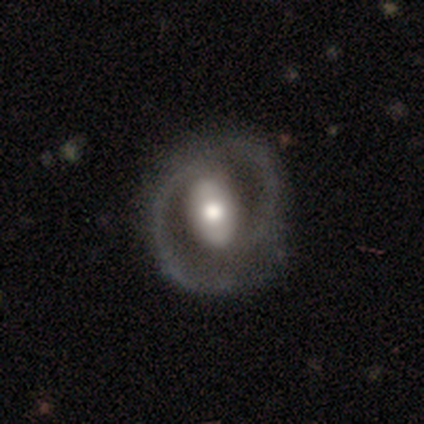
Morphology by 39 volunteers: Q: Smooth or featured?
A: featured or disk (90%); runner-up: smooth (10%)
Q: Edge-on disk?
A: no (100%)
Q: Bar?
A: strong (54%); runner-up: weak (23%)
Q: Spiral arms?
A: yes (91%); runner-up: no (9%)
Q: Spiral winding?
A: medium (66%); runner-up: tight (19%)
Q: Spiral arm count?
A: 2 (91%); runner-up: 1 (6%)
Q: Bulge size?
A: moderate (74%); runner-up: large (23%)
Q: Merging?
A: none (54%); runner-up: minor disturbance (18%)